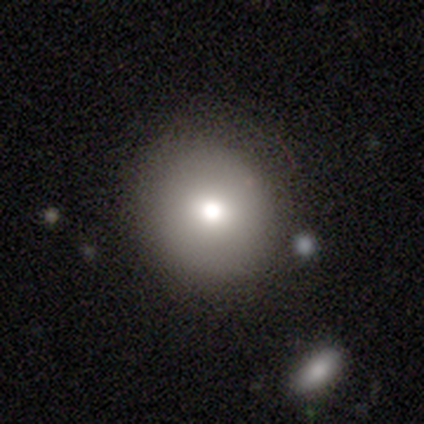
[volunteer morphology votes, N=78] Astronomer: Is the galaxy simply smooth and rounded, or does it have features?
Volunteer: smooth — 79%.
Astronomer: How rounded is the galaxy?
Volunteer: round — 90%.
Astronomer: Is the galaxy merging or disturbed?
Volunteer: none — 40%.